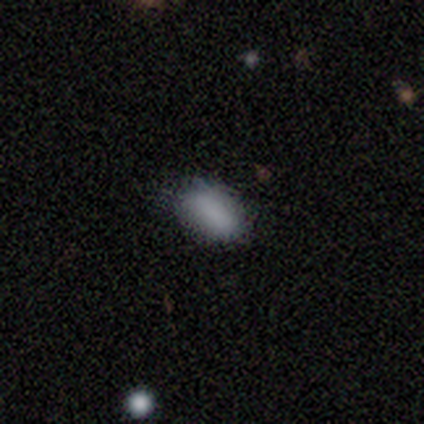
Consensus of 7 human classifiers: A smooth galaxy with no disk features (71%) that is in between round and cigar-shaped (100%).

Vote fractions:
- Smooth or featured? smooth: 71% / featured or disk: 14% / star or artifact: 14%
- How rounded? in between: 100% / round: 0% / cigar-shaped: 0%
- Merging? none: 67% / minor disturbance: 33% / major disturbance: 0% / merger: 0%